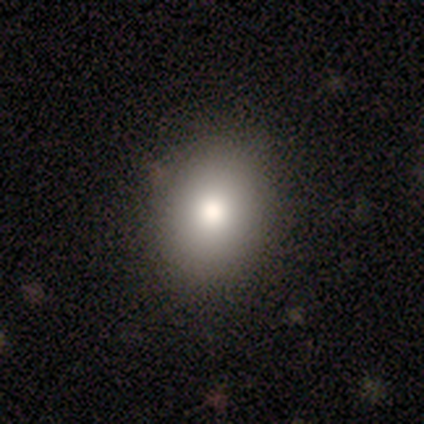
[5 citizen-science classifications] Volunteers were most divided on "how rounded": in between: 75%, round: 25%, cigar-shaped: 0%. More confident: smooth or featured — smooth (80%); merging — none (75%).